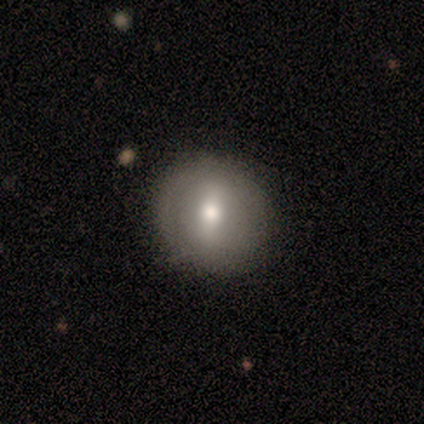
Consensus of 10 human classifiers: This appears to be a featured or disk galaxy (50%) with a weak bar (40%, tied with no), no spiral arms (100%) and a moderate central bulge (80%). Merging: none (78%).